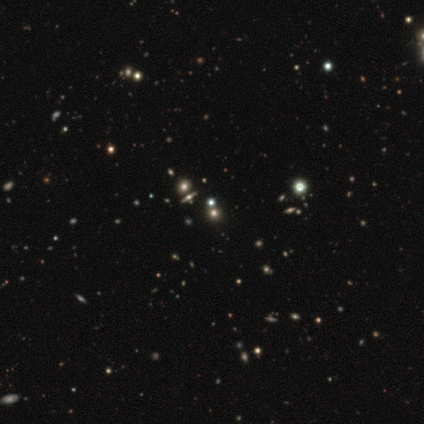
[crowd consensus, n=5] Smooth or featured?
  - star or artifact: 60% *
  - smooth: 20%
  - featured or disk: 20%